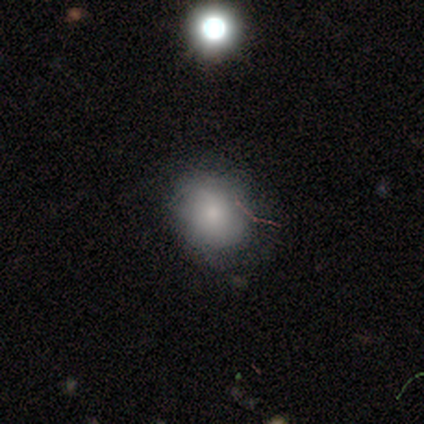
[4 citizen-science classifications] Smooth or featured: smooth — 100%
How rounded: round — 75% (in between — 25%)
Merging: none — 50% (minor disturbance — 25%)